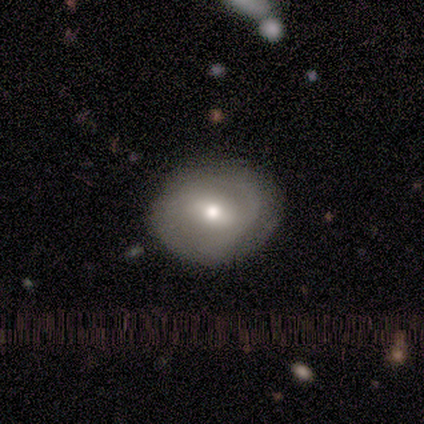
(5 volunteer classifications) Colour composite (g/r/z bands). It shows a featured or disk galaxy (60%) with a strong bar (67%), 1 (50%, tied with 2) tight (100%) spiral arms (67%) and a moderate central bulge (100%). Merging: none (100%).